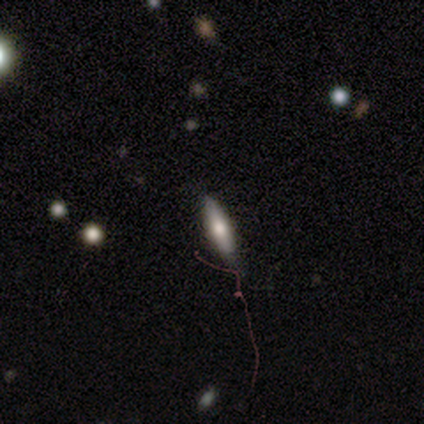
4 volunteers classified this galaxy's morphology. Smooth or featured? smooth (50%, tied with featured or disk)
How rounded? in between (50%, tied with cigar-shaped)
Merging? none (75%)